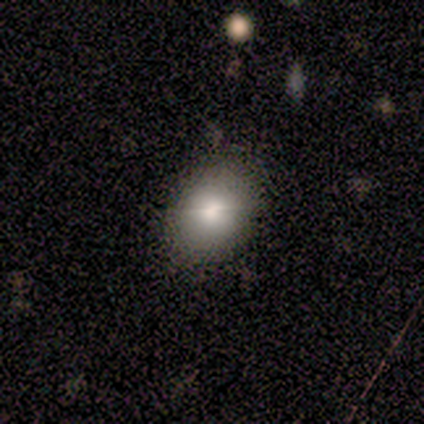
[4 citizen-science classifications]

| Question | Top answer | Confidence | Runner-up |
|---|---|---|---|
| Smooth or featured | smooth | 75% | star or artifact (25%) |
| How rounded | in between | 100% | — |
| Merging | none | 67% | minor disturbance (33%) |